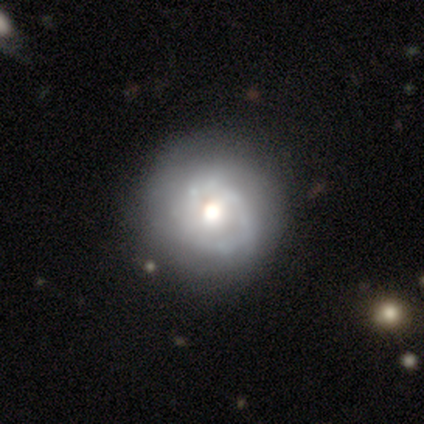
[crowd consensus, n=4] A featured or disk galaxy (75%) with no bar (67%), 1 (50%, tied with 2) medium (100%) spiral arms (67%) and a moderate central bulge (100%).

Vote fractions:
- Smooth or featured? featured or disk: 75% / smooth: 25% / star or artifact: 0%
- Edge-on disk? no: 100% / yes: 0%
- Bar? no: 67% / weak: 33% / strong: 0%
- Spiral arms? yes: 67% / no: 33%
- Spiral winding? medium: 100% / tight: 0% / loose: 0%
- Spiral arm count? 1: 50% (tied) / 2: 50% (tied) / 3: 0% / 4: 0% / more than 4: 0% / can't tell: 0%
- Bulge size? moderate: 100% / dominant: 0% / large: 0% / small: 0% / none: 0%
- Merging? none: 50% (tied) / minor disturbance: 50% (tied) / major disturbance: 0% / merger: 0%